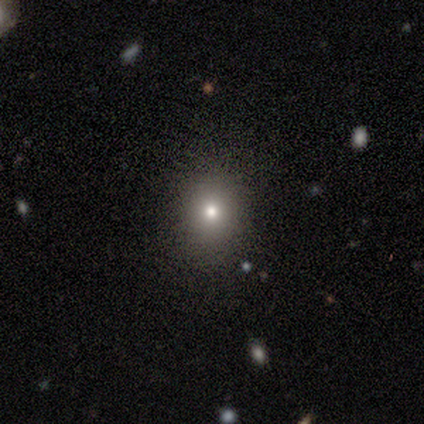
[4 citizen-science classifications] This appears to be a smooth galaxy with no disk features (50%, tied with star or artifact) that is round (50%, tied with in between). Merging: none (50%, tied with major disturbance).